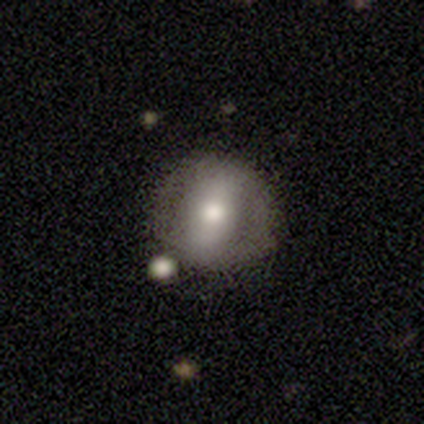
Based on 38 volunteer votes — Smooth or featured? smooth (61%)
How rounded? round (83%)
Merging? none (71%)